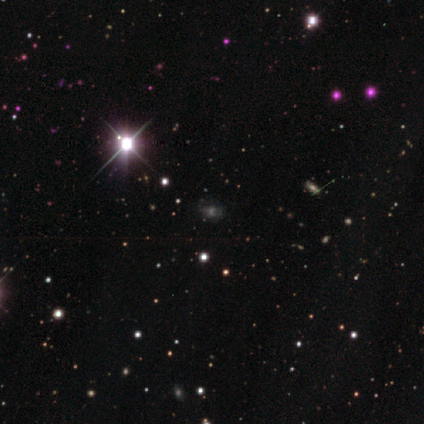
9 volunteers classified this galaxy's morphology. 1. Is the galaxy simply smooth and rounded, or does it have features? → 67% star or artifact, 22% featured or disk, 11% smooth.